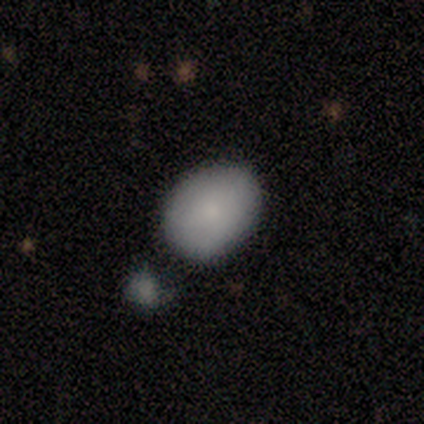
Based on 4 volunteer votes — Smooth or featured: smooth — 100%
How rounded: in between — 75% (round — 25%)
Merging: none — 50% (minor disturbance — 25%)